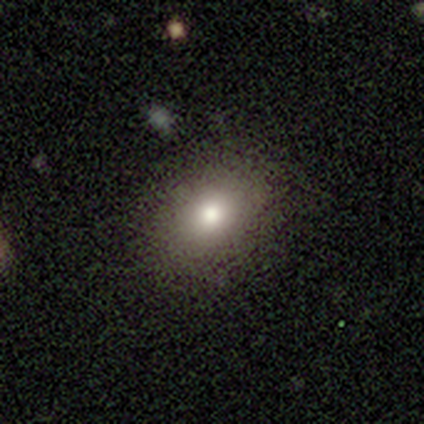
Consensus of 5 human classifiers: smooth-or-featured: smooth: 80% | featured or disk: 20% | star or artifact: 0%
  how-rounded: in between: 75% | round: 25% | cigar-shaped: 0%
  merging: none: 100% | minor disturbance: 0% | major disturbance: 0% | merger: 0%